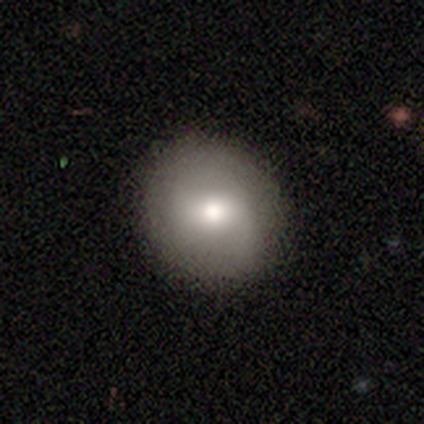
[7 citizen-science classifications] Smooth or featured? smooth (71%)
How rounded? round (80%)
Merging? none (100%)